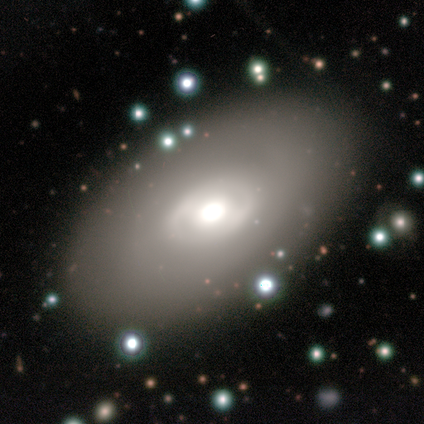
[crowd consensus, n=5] Q: Smooth or featured?
A: featured or disk (60%); runner-up: smooth (40%)
Q: Edge-on disk?
A: no (100%)
Q: Bar?
A: no (67%); runner-up: weak (33%)
Q: Spiral arms?
A: no (67%); runner-up: yes (33%)
Q: Bulge size?
A: large (67%); runner-up: moderate (33%)
Q: Merging?
A: none (80%); runner-up: minor disturbance (20%)